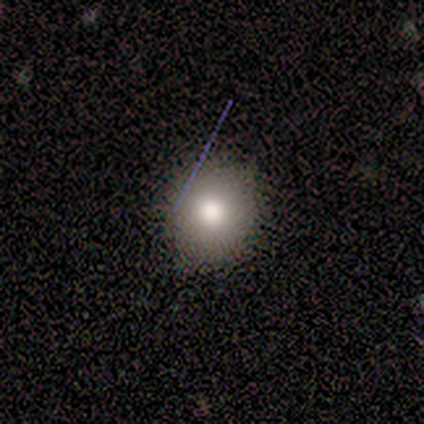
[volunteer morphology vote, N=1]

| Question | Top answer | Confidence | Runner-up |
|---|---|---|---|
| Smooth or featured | smooth | 100% | — |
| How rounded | round | 100% | — |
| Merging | none | 100% | — |